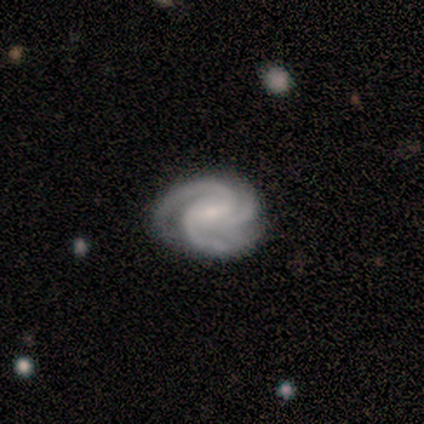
A featured or disk galaxy (100%) with a strong bar (33%, tied with weak and no), 3 (100%) tight (67%) spiral arms (100%) and a small central bulge (100%). Merging: none (80%).